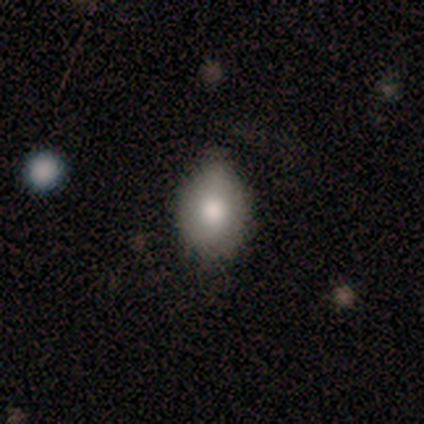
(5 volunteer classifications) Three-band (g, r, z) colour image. It shows a smooth galaxy with no disk features (60%) that is in between round and cigar-shaped (100%). Merging: none (100%).